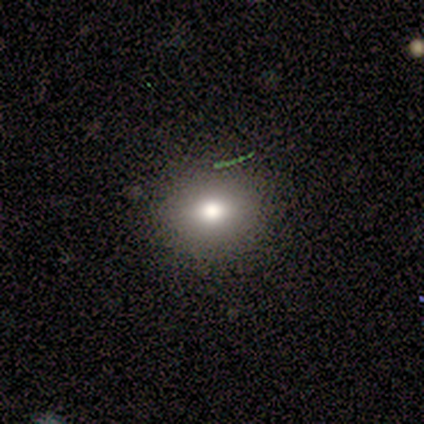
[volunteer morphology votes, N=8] type=smooth (62%); roundness=in between (60%); merging=none (86%).